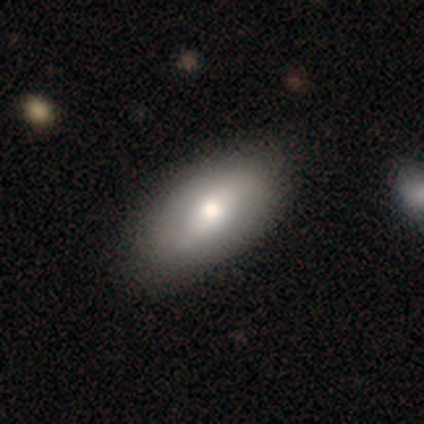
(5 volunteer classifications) smooth_or_featured: smooth (p=0.80) [alt: featured or disk p=0.20]
how_rounded: in between (p=1.00)
merging: none (p=0.80) [alt: minor disturbance p=0.20]